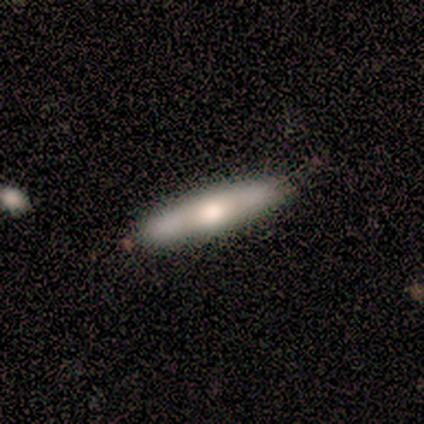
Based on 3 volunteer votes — A smooth galaxy with no disk features (100%) that is cigar-shaped (100%). Merging: none (67%).